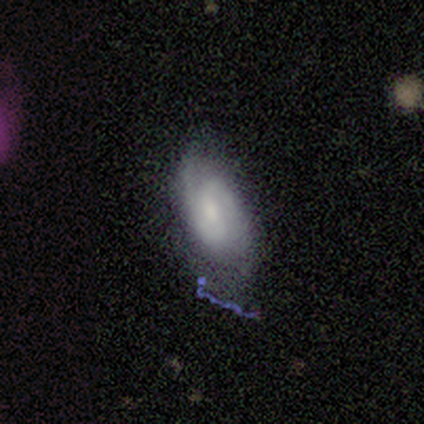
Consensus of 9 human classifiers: smooth_or_featured: featured or disk (p=0.67) [alt: smooth p=0.22]
disk_edge_on: no (p=0.67) [alt: yes p=0.33]
bar: weak (p=0.50) [tied with: no p=0.50]
has_spiral_arms: yes (p=1.00)
spiral_winding: loose (p=0.50) [alt: tight p=0.25]
spiral_arm_count: 2 (p=1.00)
bulge_size: moderate (p=0.75) [alt: small p=0.25]
merging: none (p=0.75) [alt: minor disturbance p=0.12]